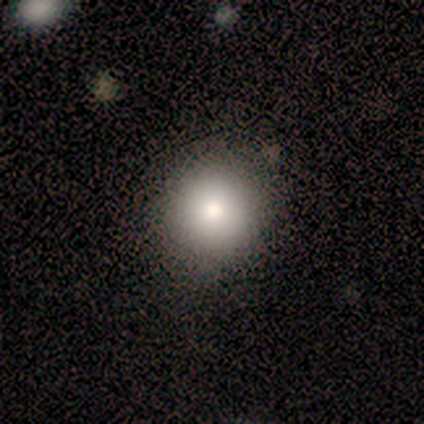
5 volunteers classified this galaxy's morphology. Smooth or featured: smooth — 80% (star or artifact — 20%)
How rounded: round — 100%
Merging: none — 100%